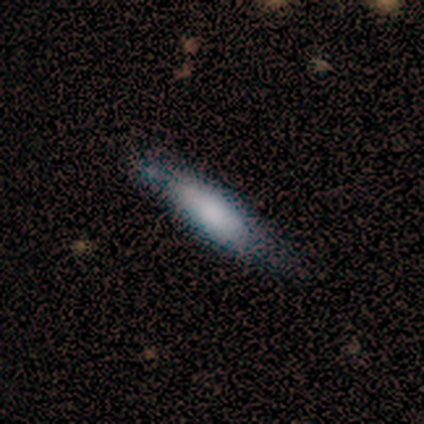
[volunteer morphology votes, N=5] Volunteers were most divided on "smooth or featured": smooth: 60%, featured or disk: 20%, star or artifact: 20%. More confident: how rounded — cigar-shaped (100%); merging — none (75%).